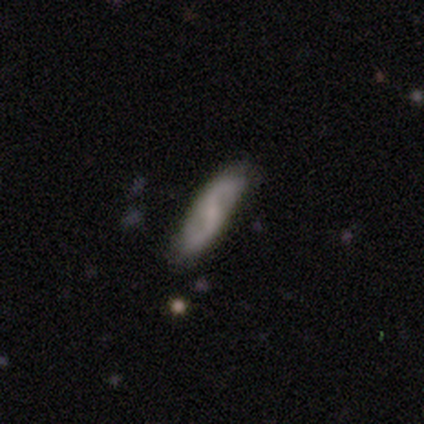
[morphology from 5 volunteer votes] smooth_or_featured: featured or disk (p=0.60) [alt: smooth p=0.40]
disk_edge_on: no (p=1.00)
bar: no (p=0.67) [alt: weak p=0.33]
has_spiral_arms: yes (p=1.00)
spiral_winding: loose (p=0.67) [alt: tight p=0.33]
spiral_arm_count: 2 (p=1.00)
bulge_size: small (p=0.67) [alt: none p=0.33]
merging: none (p=0.80) [alt: minor disturbance p=0.20]